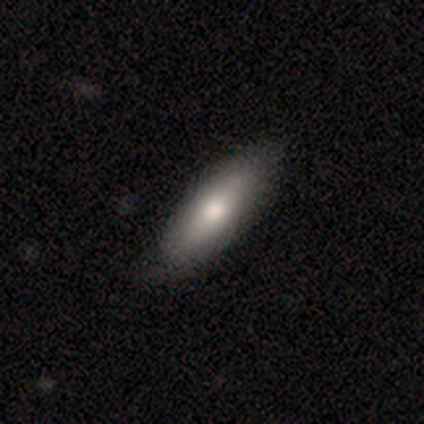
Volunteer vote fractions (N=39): Q: Smooth or featured?
A: smooth (64%); runner-up: featured or disk (33%)
Q: How rounded?
A: in between (68%); runner-up: cigar-shaped (32%)
Q: Merging?
A: none (58%); runner-up: minor disturbance (8%)